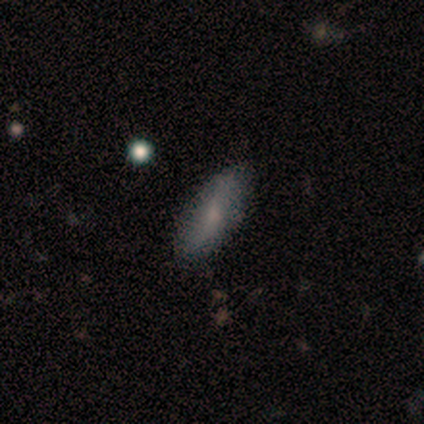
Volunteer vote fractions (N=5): smooth_or_featured: smooth (p=1.00)
how_rounded: in between (p=0.80) [alt: cigar-shaped p=0.20]
merging: none (p=0.80) [alt: minor disturbance p=0.20]